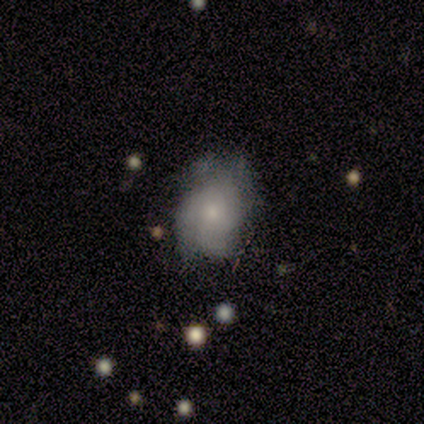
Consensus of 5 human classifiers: This appears to be a smooth galaxy with no disk features (80%) that is in between round and cigar-shaped (75%). Merging: none (80%).